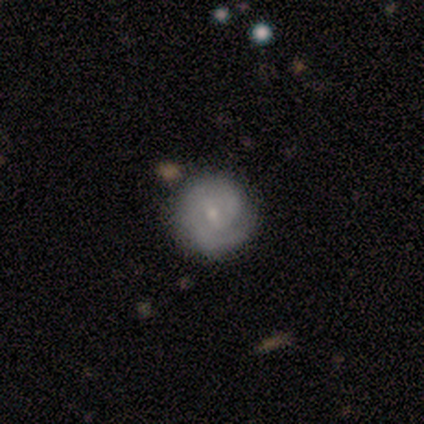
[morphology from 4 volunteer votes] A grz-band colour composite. It shows a featured or disk galaxy (100%) with a weak bar (75%), 2 (50%, tied with can't tell) tight (50%, tied with medium) spiral arms (100%) and a small central bulge (75%). Merging: none (100%).